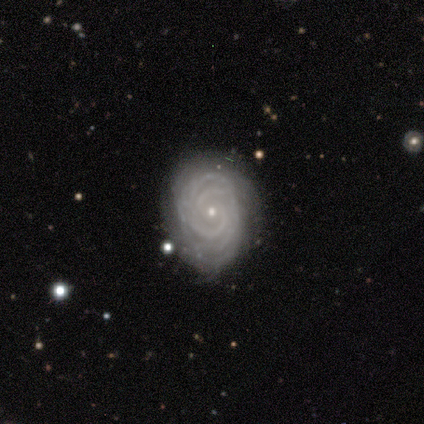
Overall: featured or disk (100%). Edge-on disk: no (100%). Bar: no (87%). Spiral arms: yes (93%). Spiral arm count: more than 4 (36%; 4 21%). Spiral winding: tight (86%). Bulge size: small (93%). Merging: none (80%).